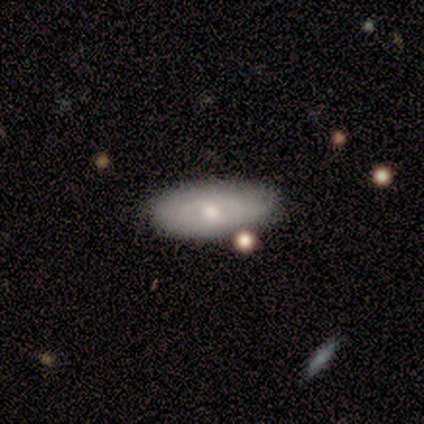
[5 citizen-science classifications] A smooth galaxy with no disk features (60%) that is in between round and cigar-shaped (100%). Merging: none (100%).